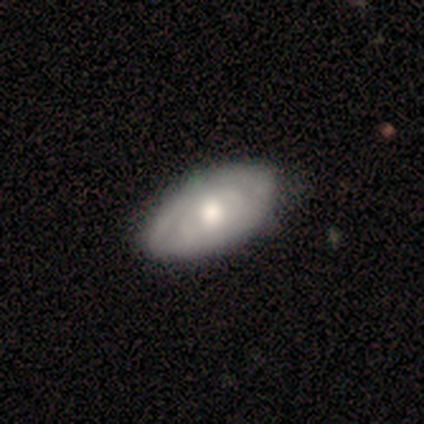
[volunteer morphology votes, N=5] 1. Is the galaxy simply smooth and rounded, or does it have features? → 60% featured or disk, 20% smooth, 20% star or artifact.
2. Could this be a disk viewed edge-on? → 100% no, 0% yes.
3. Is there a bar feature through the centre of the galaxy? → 100% no, 0% strong, 0% weak.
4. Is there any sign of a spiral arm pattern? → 67% yes, 33% no.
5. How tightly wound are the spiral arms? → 100% tight, 0% medium, 0% loose.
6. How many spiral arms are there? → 100% 2, 0% 1, 0% 3, 0% 4, 0% more than 4, 0% can't tell.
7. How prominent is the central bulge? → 67% moderate, 33% small, 0% dominant, 0% large, 0% none.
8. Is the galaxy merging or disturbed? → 75% none, 25% minor disturbance, 0% major disturbance, 0% merger.